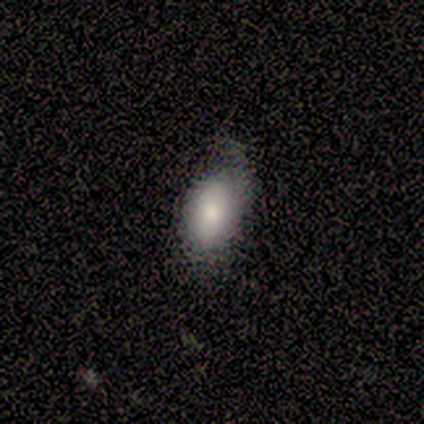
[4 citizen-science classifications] smooth 100%, featured or disk 0%, star or artifact 0%. Down the decision tree: how rounded — in between (75%); merging — none (50%, tied with minor disturbance).